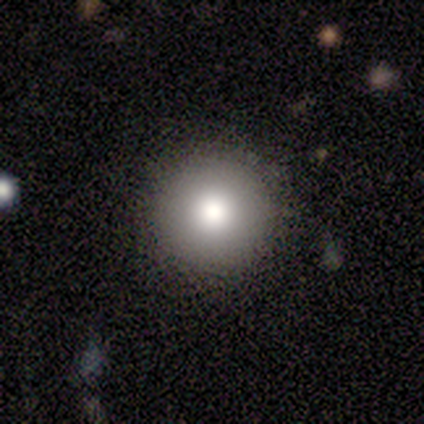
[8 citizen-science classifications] smooth-or-featured: smooth: 88% | star or artifact: 12% | featured or disk: 0%
  how-rounded: round: 100% | in between: 0% | cigar-shaped: 0%
  merging: none: 86% | minor disturbance: 14% | major disturbance: 0% | merger: 0%